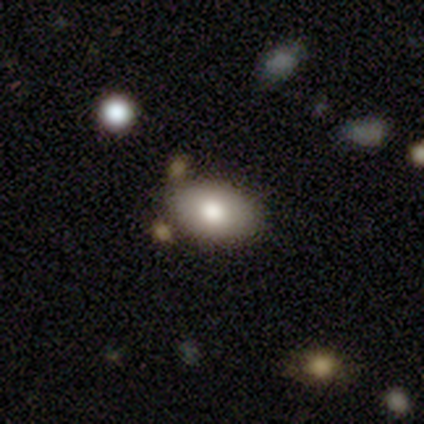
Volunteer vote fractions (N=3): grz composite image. It shows a smooth galaxy with no disk features (67%) that is in between round and cigar-shaped (100%). Merging: none (100%).